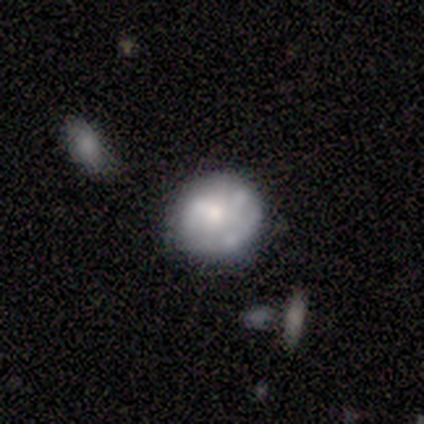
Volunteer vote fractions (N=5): Smooth or featured?
  - smooth: 80% *
  - featured or disk: 20%
  - star or artifact: 0%
How rounded?
  - round: 100% *
  - in between: 0%
  - cigar-shaped: 0%
Merging?
  - none: 60% *
  - minor disturbance: 20%
  - major disturbance: 20%
  - merger: 0%